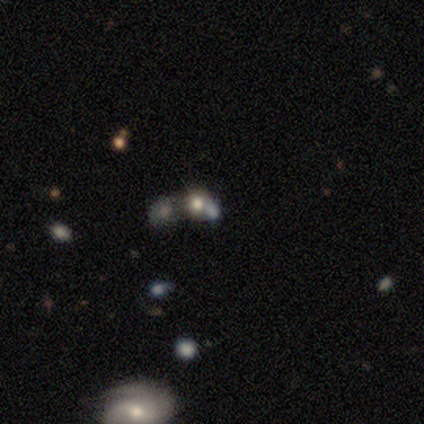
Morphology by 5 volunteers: smooth-or-featured: smooth: 80% | star or artifact: 20% | featured or disk: 0%
  how-rounded: round: 75% | in between: 25% | cigar-shaped: 0%
  merging: none: 75% | merger: 25% | minor disturbance: 0% | major disturbance: 0%